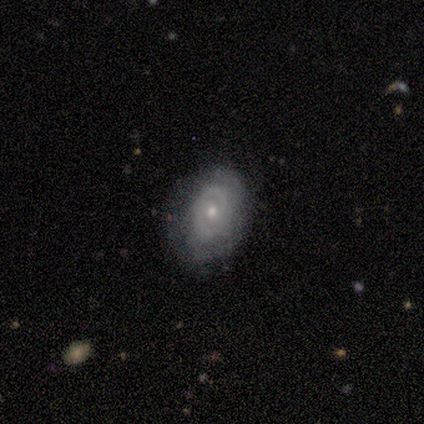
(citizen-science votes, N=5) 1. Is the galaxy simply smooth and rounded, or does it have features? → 80% featured or disk, 20% smooth, 0% star or artifact.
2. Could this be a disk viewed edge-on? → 100% no, 0% yes.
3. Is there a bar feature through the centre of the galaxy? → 50% weak (tied), 50% no (tied), 0% strong.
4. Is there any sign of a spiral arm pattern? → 50% yes (tied), 50% no (tied).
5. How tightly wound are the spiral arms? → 50% tight (tied), 50% medium (tied), 0% loose.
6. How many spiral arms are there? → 100% 2, 0% 1, 0% 3, 0% 4, 0% more than 4, 0% can't tell.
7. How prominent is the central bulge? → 75% small, 25% moderate, 0% dominant, 0% large, 0% none.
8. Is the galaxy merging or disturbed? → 80% none, 20% minor disturbance, 0% major disturbance, 0% merger.